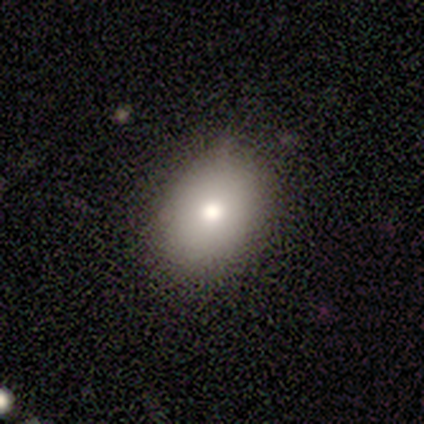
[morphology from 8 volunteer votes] This is likely a smooth galaxy (75%). How rounded: possibly round (50%, tied with in between). Merging: clearly none (100%).